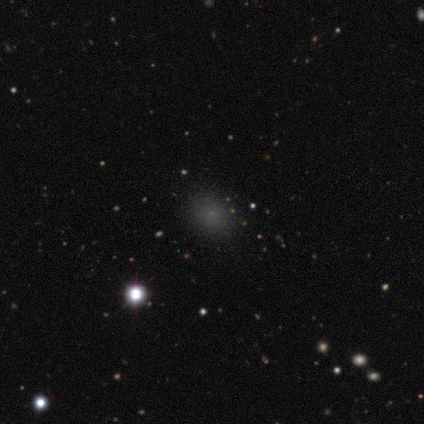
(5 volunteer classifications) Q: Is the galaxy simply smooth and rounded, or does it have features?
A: smooth — 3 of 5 (60%).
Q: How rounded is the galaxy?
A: in between — 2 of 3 (67%).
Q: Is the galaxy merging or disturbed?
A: none — 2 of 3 (67%).